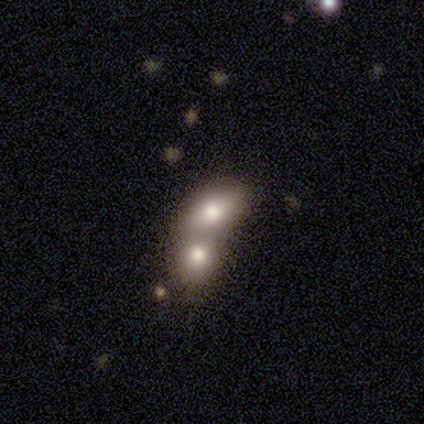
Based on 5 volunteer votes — A smooth galaxy with no disk features (80%) that is in between round and cigar-shaped (100%).

Vote fractions:
- Smooth or featured? smooth: 80% / featured or disk: 20% / star or artifact: 0%
- How rounded? in between: 100% / round: 0% / cigar-shaped: 0%
- Merging? merger: 80% / none: 20% / minor disturbance: 0% / major disturbance: 0%